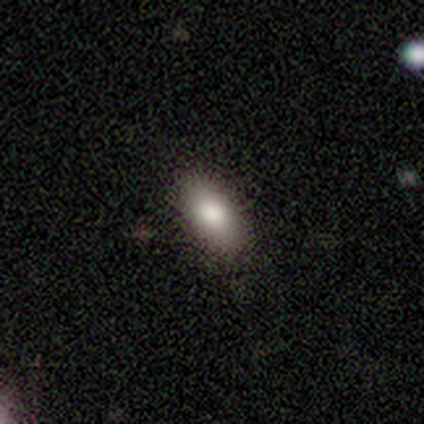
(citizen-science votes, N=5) A smooth galaxy with no disk features (80%) that is in between round and cigar-shaped (100%). Merging: none (100%).